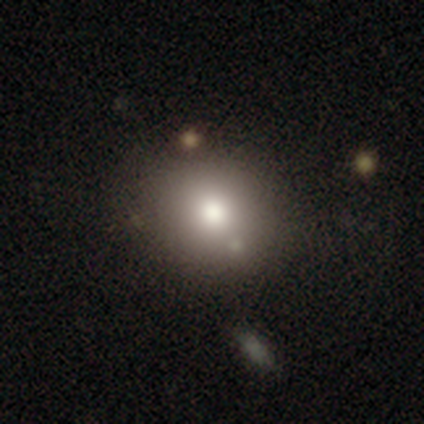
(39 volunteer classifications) smooth 87%, featured or disk 8%, star or artifact 5%. Down the decision tree: how rounded — round (79%); merging — none (70%).